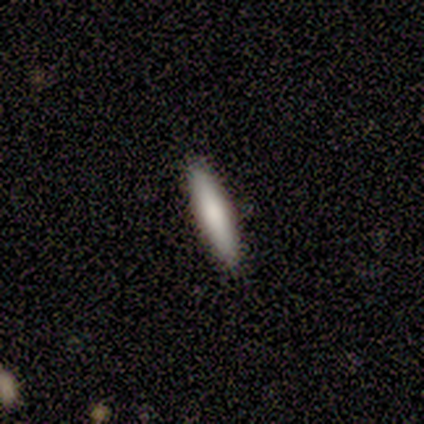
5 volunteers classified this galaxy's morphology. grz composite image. It shows a smooth galaxy with no disk features (80%) that is cigar-shaped (100%). Merging: none (100%).